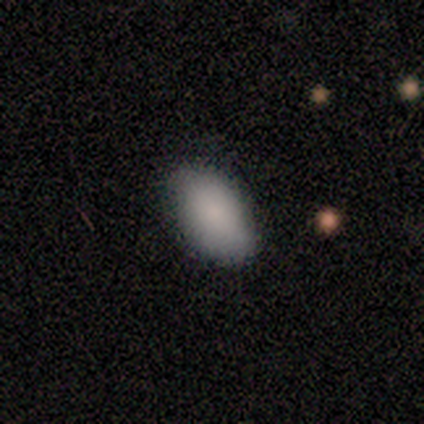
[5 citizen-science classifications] Smooth or featured: smooth — 100%
How rounded: in between — 100%
Merging: none — 100%